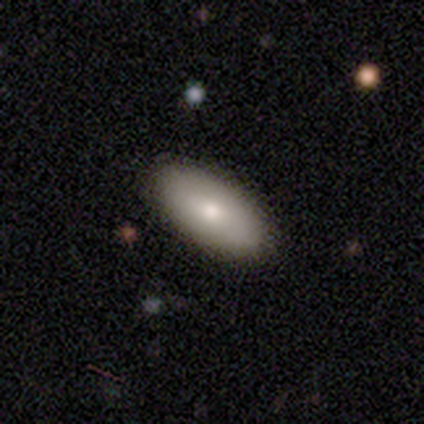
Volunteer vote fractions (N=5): smooth 100%, featured or disk 0%, star or artifact 0%. Down the decision tree: how rounded — in between (100%); merging — none (80%).